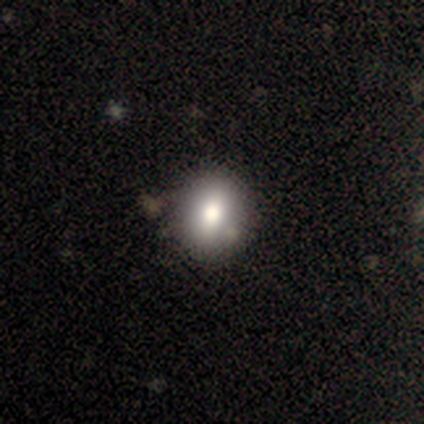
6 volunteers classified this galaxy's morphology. Smooth or featured? smooth (83%)
How rounded? in between (80%)
Merging? none (80%)